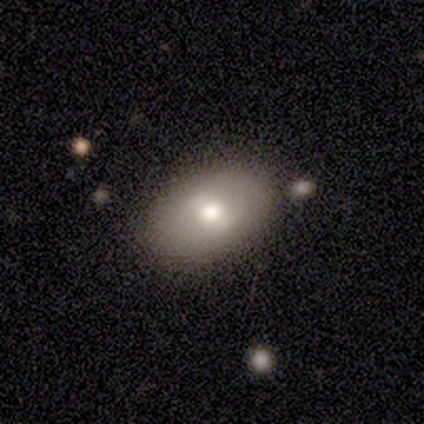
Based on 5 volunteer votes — smooth_or_featured: smooth (p=0.40) [tied with: star or artifact p=0.40]
how_rounded: in between (p=1.00)
merging: none (p=1.00)